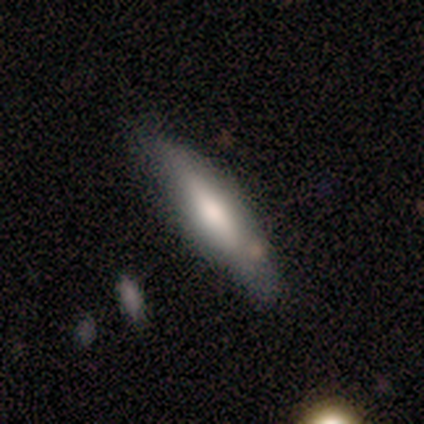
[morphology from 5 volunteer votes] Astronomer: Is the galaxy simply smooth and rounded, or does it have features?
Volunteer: smooth — 60% (runner-up: star or artifact, 40%).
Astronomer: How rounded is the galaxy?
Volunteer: in between — 67%.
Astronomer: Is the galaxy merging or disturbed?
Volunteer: none — 100%.